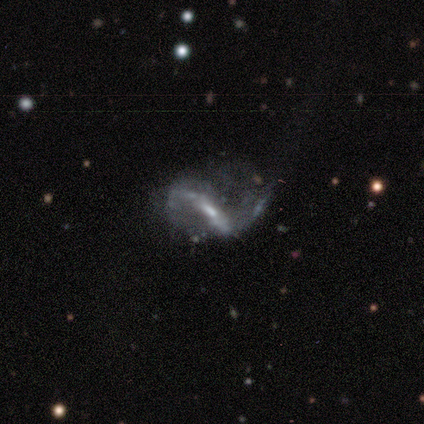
Smooth or featured?
  - featured or disk: 60% *
  - star or artifact: 40%
  - smooth: 0%
Edge-on disk?
  - no: 100% *
  - yes: 0%
Bar?
  - strong: 100% *
  - weak: 0%
  - no: 0%
Spiral arms?
  - yes: 100% *
  - no: 0%
Spiral winding?
  - loose: 100% *
  - tight: 0%
  - medium: 0%
Spiral arm count?
  - 2: 100% *
  - 1: 0%
  - 3: 0%
  - 4: 0%
  - more than 4: 0%
  - can't tell: 0%
Bulge size?
  - moderate: 100% *
  - dominant: 0%
  - large: 0%
  - small: 0%
  - none: 0%
Merging?
  - none: 33% * (tied)
  - minor disturbance: 33% * (tied)
  - merger: 33% * (tied)
  - major disturbance: 0%